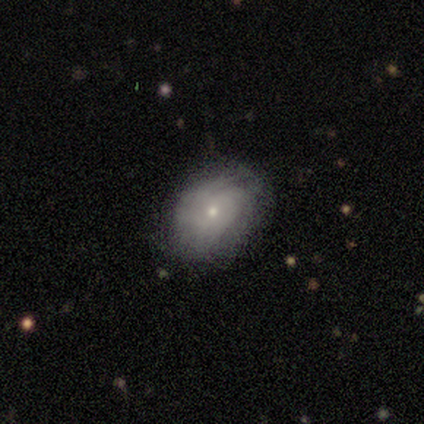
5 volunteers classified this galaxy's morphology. A smooth galaxy with no disk features (100%) that is in between round and cigar-shaped (80%). Merging: none (80%).